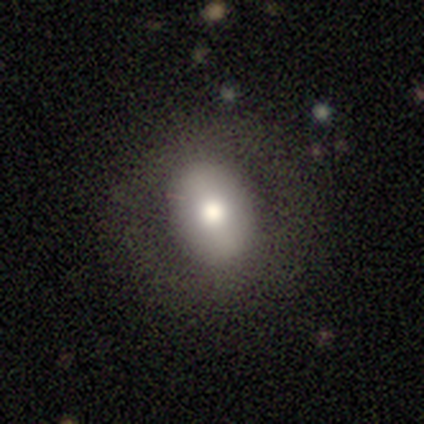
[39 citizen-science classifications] Smooth or featured: smooth — 69% (featured or disk — 23%)
How rounded: in between — 74% (round — 26%)
Merging: none — 83% (minor disturbance — 11%)